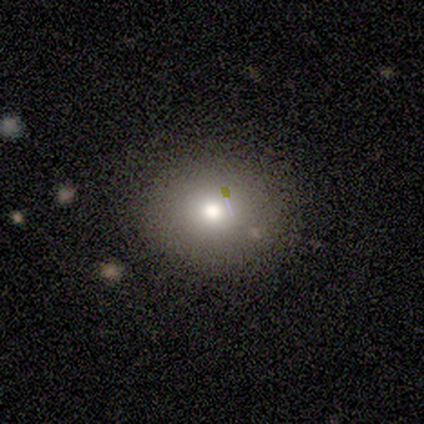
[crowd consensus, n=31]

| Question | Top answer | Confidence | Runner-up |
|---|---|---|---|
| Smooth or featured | smooth | 65% | star or artifact (19%) |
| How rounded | round | 85% | in between (15%) |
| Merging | none | 80% | minor disturbance (12%) |